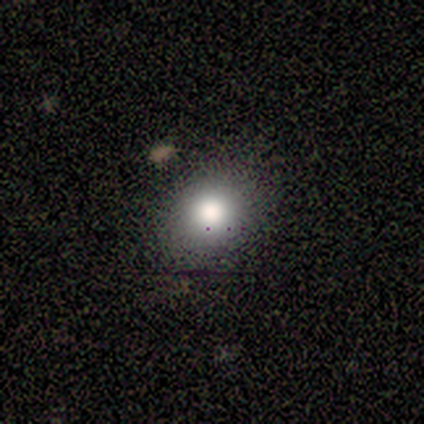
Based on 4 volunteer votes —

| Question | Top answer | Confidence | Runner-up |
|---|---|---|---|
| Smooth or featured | smooth | 100% | — |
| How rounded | round | 50% | tied: in between (50%) |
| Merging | none | 100% | — |